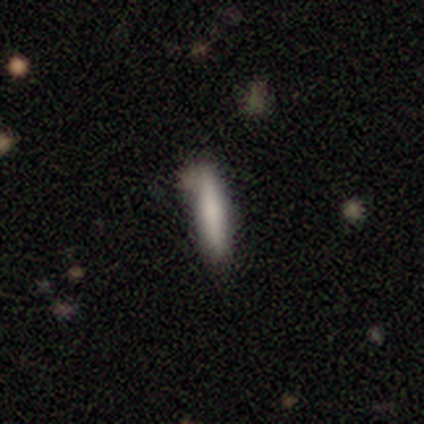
smooth-or-featured: smooth: 100% | featured or disk: 0% | star or artifact: 0%
  how-rounded: cigar-shaped: 100% | round: 0% | in between: 0%
  merging: none: 60% | minor disturbance: 20% | major disturbance: 20% | merger: 0%